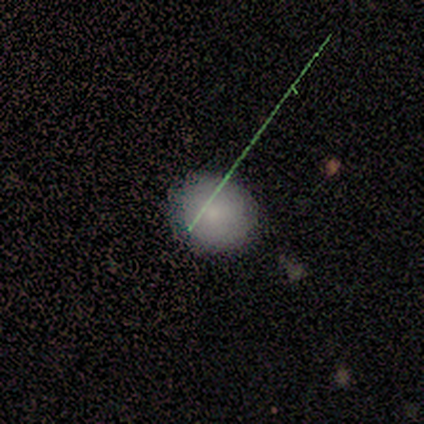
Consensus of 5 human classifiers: A smooth galaxy with no disk features (100%) that is round (60%).

Vote fractions:
- Smooth or featured? smooth: 100% / featured or disk: 0% / star or artifact: 0%
- How rounded? round: 60% / in between: 40% / cigar-shaped: 0%
- Merging? none: 100% / minor disturbance: 0% / major disturbance: 0% / merger: 0%